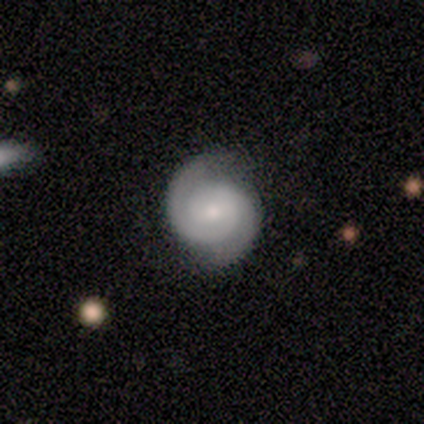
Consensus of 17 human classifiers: Smooth or featured? 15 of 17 (88%) said featured or disk. Edge-on disk? 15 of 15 (100%) said no. Bar? 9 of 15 (60%) said no. Spiral arms? 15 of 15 (100%) said yes. Spiral winding? 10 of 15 (67%) said tight. Spiral arm count? 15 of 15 (100%) said 2. Bulge size? 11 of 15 (73%) said small. Merging? 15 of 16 (94%) said none.